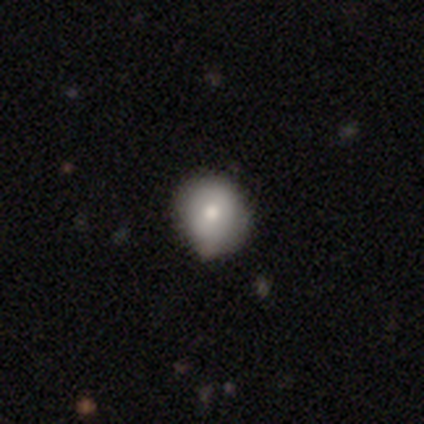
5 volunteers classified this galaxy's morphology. smooth 40% (tied), featured or disk 40% (tied), star or artifact 20%. Down the decision tree: how rounded — round (100%); merging — none (50%, tied with minor disturbance).